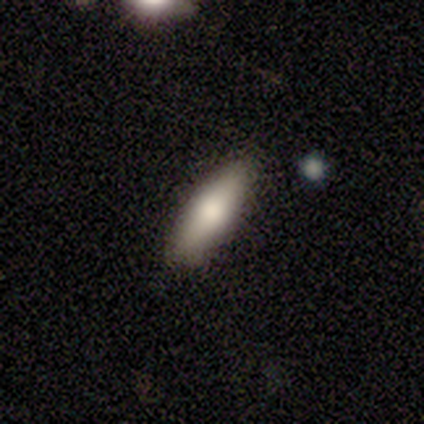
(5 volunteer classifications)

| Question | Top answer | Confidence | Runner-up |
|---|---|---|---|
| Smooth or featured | smooth | 100% | — |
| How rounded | in between | 60% | cigar-shaped (40%) |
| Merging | none | 100% | — |